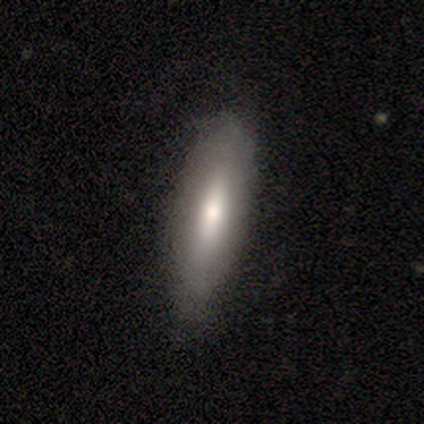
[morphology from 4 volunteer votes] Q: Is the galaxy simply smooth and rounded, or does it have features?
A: smooth — 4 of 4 (100%).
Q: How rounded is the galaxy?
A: cigar-shaped — 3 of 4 (75%).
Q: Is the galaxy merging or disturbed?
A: none — 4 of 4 (100%).